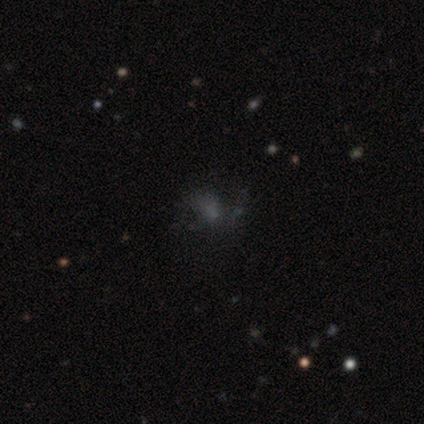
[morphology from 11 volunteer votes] smooth 55%, star or artifact 36%, featured or disk 9%. Down the decision tree: how rounded — round (67%); merging — none (43%, tied with major disturbance).